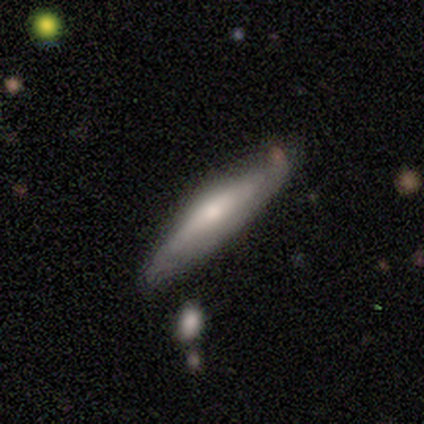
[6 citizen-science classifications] This appears to be a smooth galaxy with no disk features (83%) that is cigar-shaped (60%). Merging: none (83%).